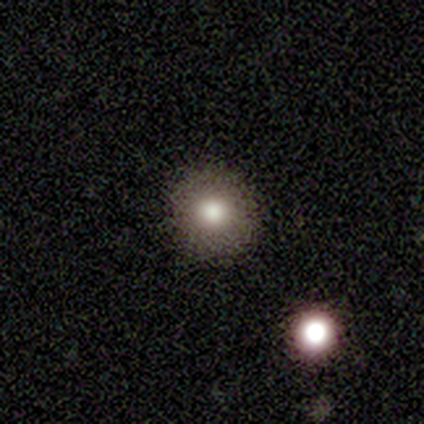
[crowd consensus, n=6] Smooth or featured?
  - smooth: 100% *
  - featured or disk: 0%
  - star or artifact: 0%
How rounded?
  - round: 100% *
  - in between: 0%
  - cigar-shaped: 0%
Merging?
  - none: 100% *
  - minor disturbance: 0%
  - major disturbance: 0%
  - merger: 0%